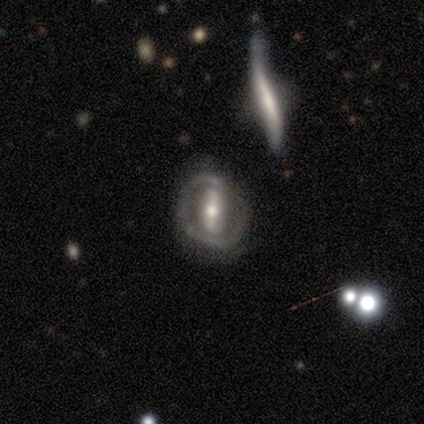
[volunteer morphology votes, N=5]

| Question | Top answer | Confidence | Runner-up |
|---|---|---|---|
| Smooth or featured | featured or disk | 80% | smooth (20%) |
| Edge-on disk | no | 100% | — |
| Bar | strong | 75% | weak (25%) |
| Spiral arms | yes | 50% | tied: no (50%) |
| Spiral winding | tight | 50% | tied: loose (50%) |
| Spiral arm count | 1 | 50% | tied: 2 (50%) |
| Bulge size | small | 50% | large (25%) |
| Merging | none | 80% | minor disturbance (20%) |